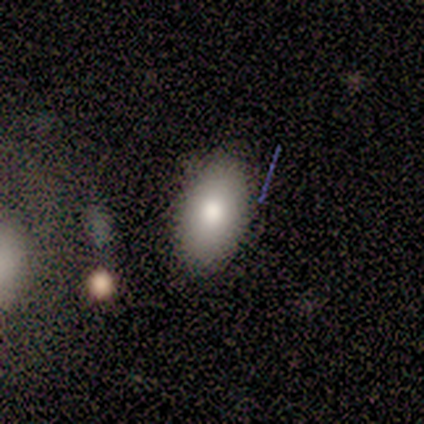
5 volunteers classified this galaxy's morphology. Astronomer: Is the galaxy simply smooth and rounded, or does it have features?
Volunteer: smooth — 100%.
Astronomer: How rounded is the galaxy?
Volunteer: in between — 80%.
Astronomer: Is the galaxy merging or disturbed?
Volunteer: none — 100%.